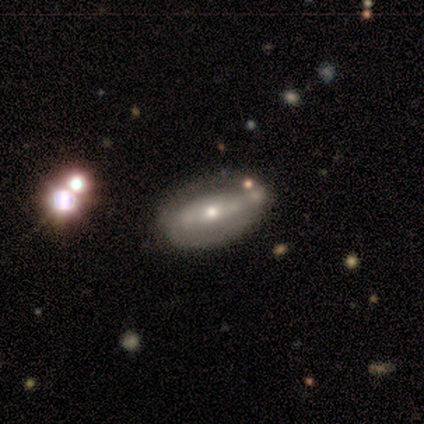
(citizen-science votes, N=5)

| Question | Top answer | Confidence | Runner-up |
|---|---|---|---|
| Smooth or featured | featured or disk | 80% | smooth (20%) |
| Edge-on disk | no | 100% | — |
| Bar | strong | 50% | tied: weak (50%) |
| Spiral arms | yes | 50% | tied: no (50%) |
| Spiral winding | tight | 50% | tied: medium (50%) |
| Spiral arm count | can't tell | 100% | — |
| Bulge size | moderate | 50% | tied: small (50%) |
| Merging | none | 100% | — |